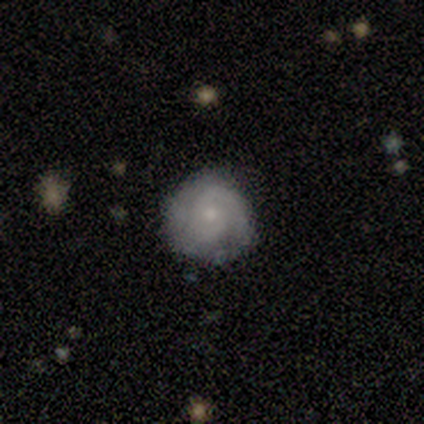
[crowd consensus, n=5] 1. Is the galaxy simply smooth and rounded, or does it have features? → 60% featured or disk, 40% smooth, 0% star or artifact.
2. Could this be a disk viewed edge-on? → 100% no, 0% yes.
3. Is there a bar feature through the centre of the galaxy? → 100% no, 0% strong, 0% weak.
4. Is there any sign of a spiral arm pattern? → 100% yes, 0% no.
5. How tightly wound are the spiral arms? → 67% medium, 33% tight, 0% loose.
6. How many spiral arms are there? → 33% 1 (tied), 33% 2 (tied), 33% 3 (tied), 0% 4, 0% more than 4, 0% can't tell.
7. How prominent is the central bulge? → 100% small, 0% dominant, 0% large, 0% moderate, 0% none.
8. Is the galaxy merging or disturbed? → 100% none, 0% minor disturbance, 0% major disturbance, 0% merger.